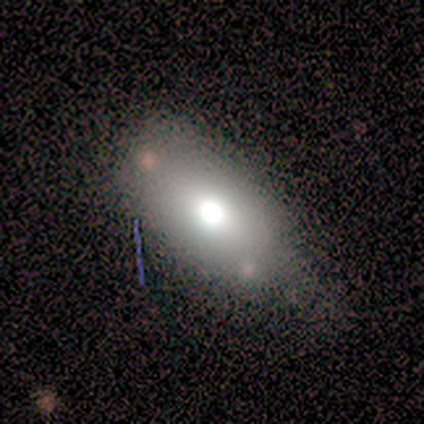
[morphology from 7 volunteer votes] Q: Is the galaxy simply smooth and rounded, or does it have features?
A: smooth — 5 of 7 (71%).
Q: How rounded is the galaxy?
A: in between — 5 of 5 (100%).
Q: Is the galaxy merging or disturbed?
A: none — 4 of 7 (57%).